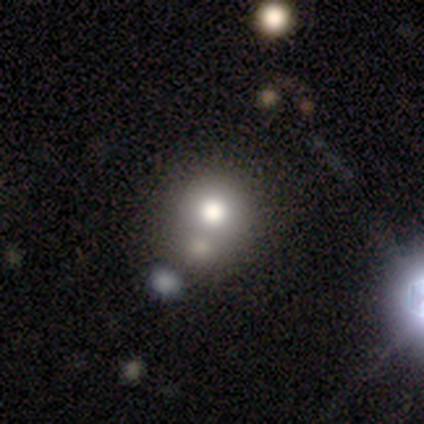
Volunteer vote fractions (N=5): Overall: smooth (80%). How rounded: round (100%). Merging: none (50%; major disturbance 25%).